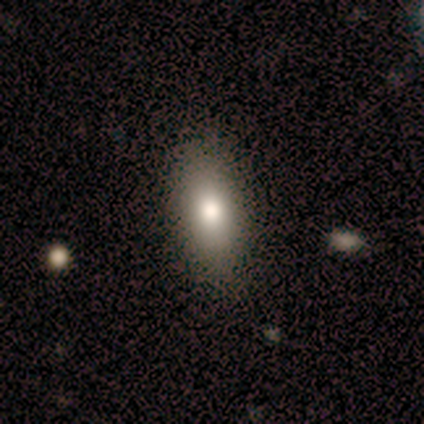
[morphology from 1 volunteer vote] A smooth galaxy with no disk features (100%) that is in between round and cigar-shaped (100%).

Vote fractions:
- Smooth or featured? smooth: 100% / featured or disk: 0% / star or artifact: 0%
- How rounded? in between: 100% / round: 0% / cigar-shaped: 0%
- Merging? none: 100% / minor disturbance: 0% / major disturbance: 0% / merger: 0%